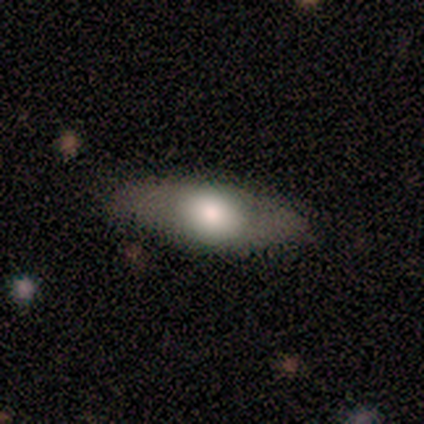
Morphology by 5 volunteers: This appears to be a featured or disk galaxy (60%) with no bar (67%), no spiral arms (67%) and a dominant central bulge (33%, tied with large and moderate). Merging: none (50%, tied with minor disturbance).